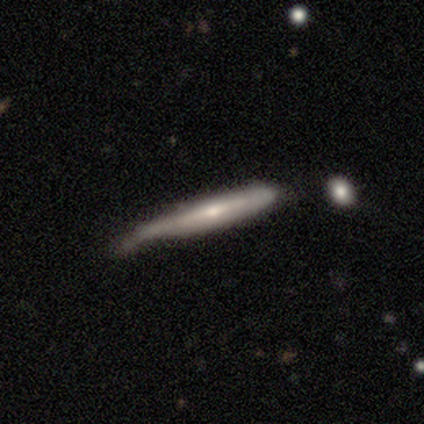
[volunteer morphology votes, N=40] Smooth or featured? 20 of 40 (50%, tied with featured or disk) said smooth. How rounded? 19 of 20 (95%) said cigar-shaped. Merging? 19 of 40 (48%) said minor disturbance.